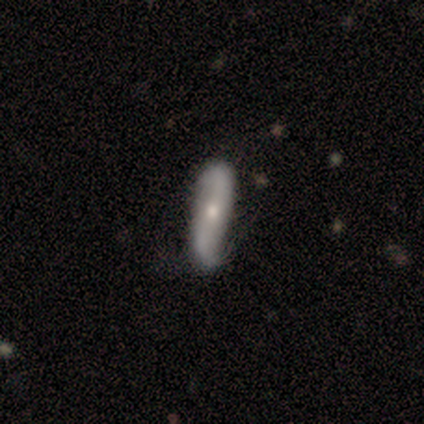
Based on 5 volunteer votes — A smooth galaxy with no disk features (60%) that is cigar-shaped (67%).

Vote fractions:
- Smooth or featured? smooth: 60% / featured or disk: 40% / star or artifact: 0%
- How rounded? cigar-shaped: 67% / in between: 33% / round: 0%
- Merging? none: 60% / minor disturbance: 40% / major disturbance: 0% / merger: 0%